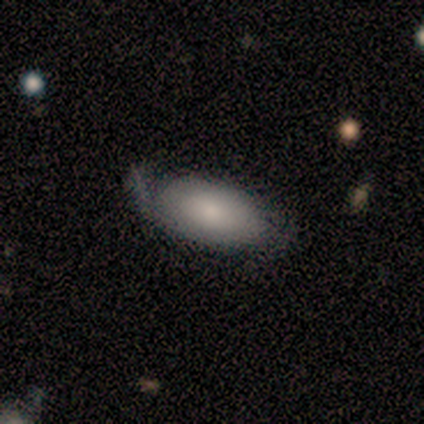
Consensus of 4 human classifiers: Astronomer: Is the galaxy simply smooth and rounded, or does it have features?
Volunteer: smooth — 50%, tied with featured or disk at 50%.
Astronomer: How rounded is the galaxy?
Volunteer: in between — 100%.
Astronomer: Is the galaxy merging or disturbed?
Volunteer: minor disturbance — 50%, tied with major disturbance at 50%.